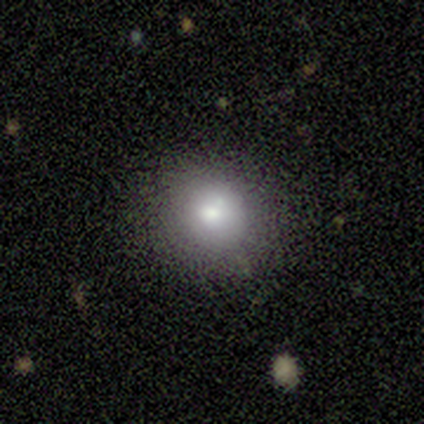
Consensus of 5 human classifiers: Smooth or featured? 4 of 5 (80%) said smooth. How rounded? 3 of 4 (75%) said round. Merging? 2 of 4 (50%, tied with minor disturbance) said none.